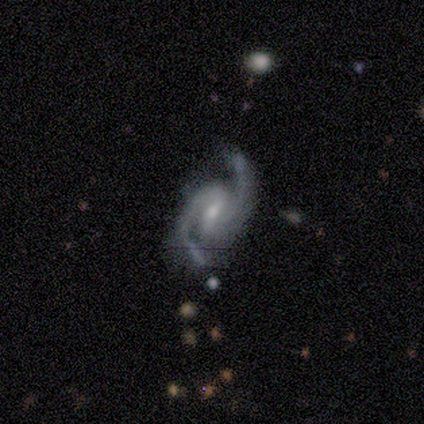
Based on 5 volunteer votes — smooth_or_featured: featured or disk (p=1.00)
disk_edge_on: no (p=1.00)
bar: no (p=0.60) [alt: strong p=0.20]
has_spiral_arms: yes (p=0.80) [alt: no p=0.20]
spiral_winding: medium (p=1.00)
spiral_arm_count: 2 (p=1.00)
bulge_size: small (p=1.00)
merging: none (p=0.60) [alt: minor disturbance p=0.20]